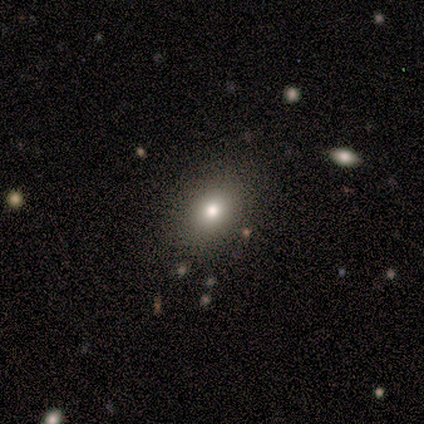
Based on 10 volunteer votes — Q: Smooth or featured?
A: smooth (100%)
Q: How rounded?
A: in between (60%); runner-up: round (40%)
Q: Merging?
A: none (70%); runner-up: minor disturbance (30%)